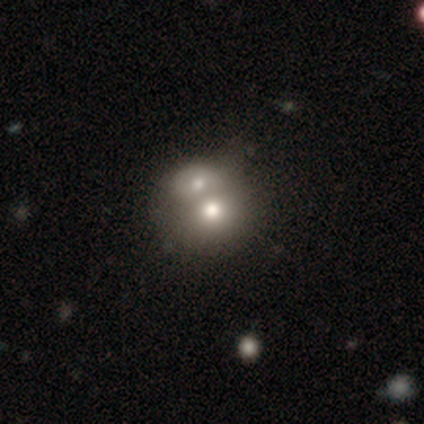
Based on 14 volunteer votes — Smooth or featured?
  - smooth: 57% *
  - featured or disk: 36%
  - star or artifact: 7%
How rounded?
  - in between: 75% *
  - round: 25%
  - cigar-shaped: 0%
Merging?
  - merger: 92% *
  - none: 8%
  - minor disturbance: 0%
  - major disturbance: 0%